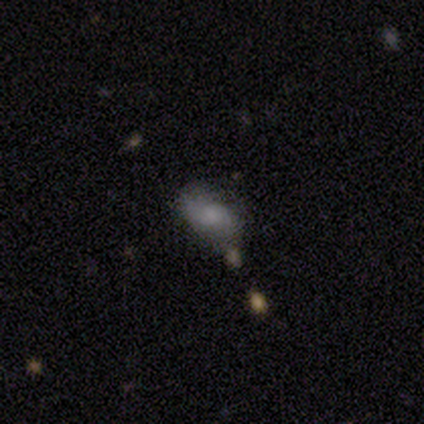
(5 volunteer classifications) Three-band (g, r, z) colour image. It shows a smooth galaxy with no disk features (80%) that is in between round and cigar-shaped (100%). Merging: none (80%).